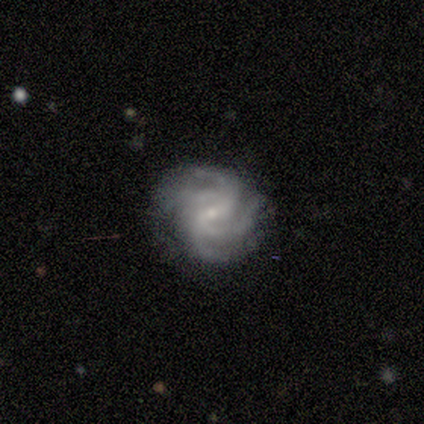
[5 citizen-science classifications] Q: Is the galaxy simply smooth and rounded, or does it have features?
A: featured or disk — 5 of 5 (100%).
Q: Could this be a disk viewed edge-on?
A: no — 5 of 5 (100%).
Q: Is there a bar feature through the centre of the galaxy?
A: no — 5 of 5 (100%).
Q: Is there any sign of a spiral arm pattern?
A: yes — 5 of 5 (100%).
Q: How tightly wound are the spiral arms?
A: tight — 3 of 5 (60%).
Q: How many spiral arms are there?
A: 4 — 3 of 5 (60%).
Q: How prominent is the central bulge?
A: small — 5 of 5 (100%).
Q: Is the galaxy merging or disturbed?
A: none — 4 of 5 (80%).